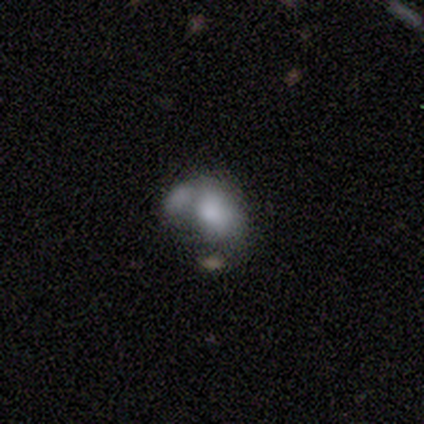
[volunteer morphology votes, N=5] Smooth or featured?
  - smooth: 80% *
  - featured or disk: 20%
  - star or artifact: 0%
How rounded?
  - in between: 100% *
  - round: 0%
  - cigar-shaped: 0%
Merging?
  - major disturbance: 40% * (tied)
  - merger: 40% * (tied)
  - minor disturbance: 20%
  - none: 0%